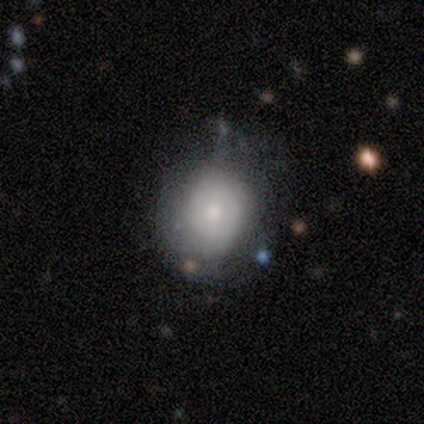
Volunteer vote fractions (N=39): smooth_or_featured: smooth (p=0.64) [alt: featured or disk p=0.23]
how_rounded: round (p=0.60) [alt: in between p=0.40]
merging: none (p=0.68) [alt: minor disturbance p=0.32]